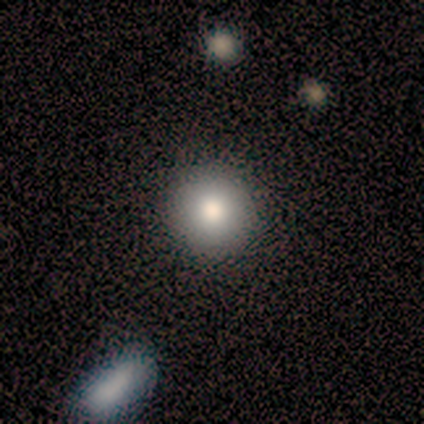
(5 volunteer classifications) Smooth or featured? smooth (80%)
How rounded? round (100%)
Merging? none (100%)